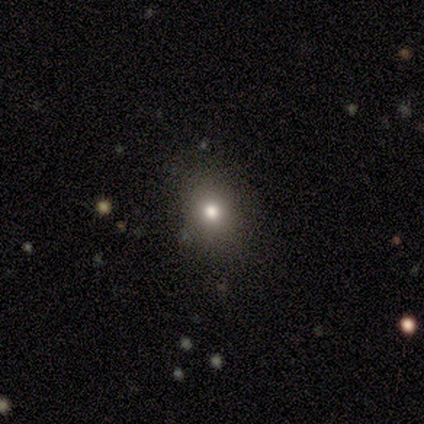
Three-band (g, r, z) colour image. It shows a smooth galaxy with no disk features (100%) that is round (80%). Merging: none (100%).